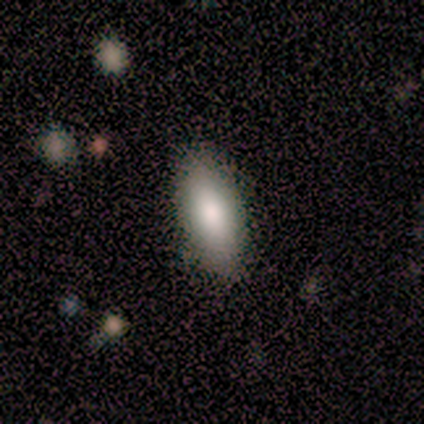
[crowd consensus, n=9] Smooth or featured? 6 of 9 (67%) said smooth. How rounded? 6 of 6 (100%) said in between. Merging? 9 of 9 (100%) said none.